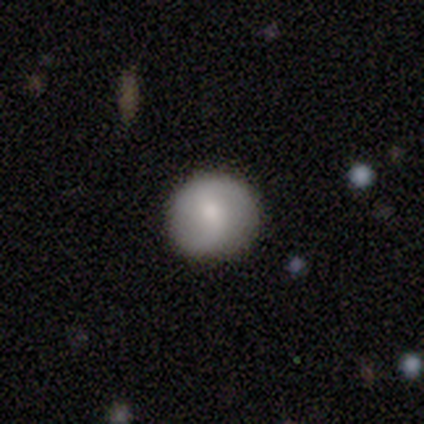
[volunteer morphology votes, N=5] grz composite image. It shows a smooth galaxy with no disk features (60%) that is round (100%). Merging: none (100%).